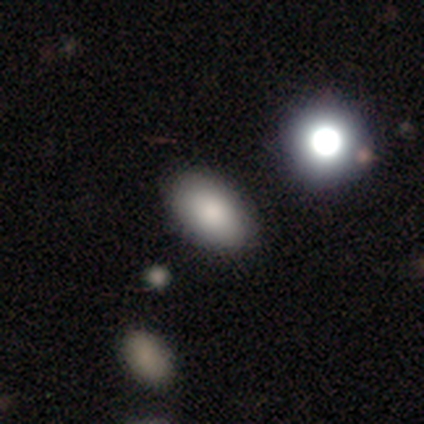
smooth_or_featured: smooth (p=0.76) [alt: star or artifact p=0.15]
how_rounded: in between (p=0.87) [alt: round p=0.12]
merging: none (p=0.80) [alt: minor disturbance p=0.13]